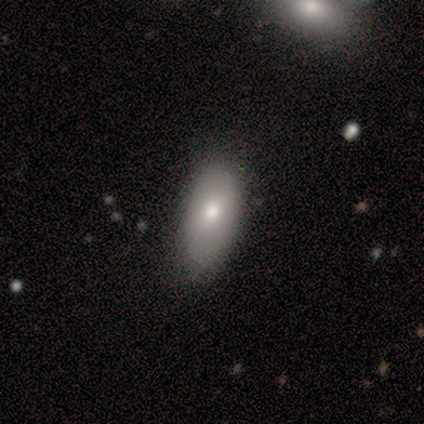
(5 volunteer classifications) A smooth galaxy with no disk features (100%) that is in between round and cigar-shaped (100%). Merging: none (100%).